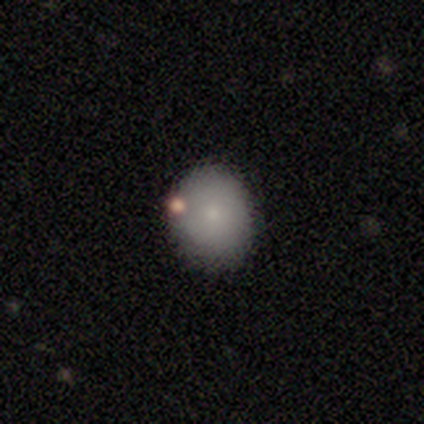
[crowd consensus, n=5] Smooth or featured: smooth — 80% (featured or disk — 20%)
How rounded: round — 75% (in between — 25%)
Merging: none — 80% (minor disturbance — 20%)